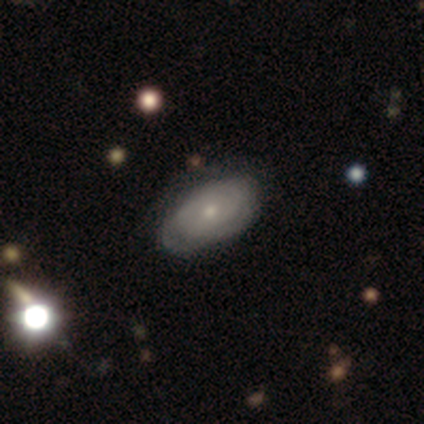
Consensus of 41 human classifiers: Q: Smooth or featured?
A: featured or disk (71%); runner-up: smooth (27%)
Q: Edge-on disk?
A: no (100%)
Q: Bar?
A: no (90%); runner-up: weak (10%)
Q: Spiral arms?
A: yes (69%); runner-up: no (31%)
Q: Spiral winding?
A: tight (85%); runner-up: medium (15%)
Q: Spiral arm count?
A: can't tell (50%); runner-up: 3 (25%)
Q: Bulge size?
A: small (48%); runner-up: moderate (45%)
Q: Merging?
A: none (72%); runner-up: minor disturbance (20%)